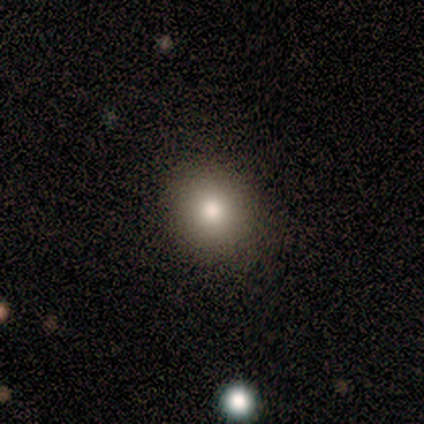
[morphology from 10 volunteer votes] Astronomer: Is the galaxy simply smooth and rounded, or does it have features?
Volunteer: smooth — 100%.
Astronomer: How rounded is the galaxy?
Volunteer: round — 60% (runner-up: in between, 40%).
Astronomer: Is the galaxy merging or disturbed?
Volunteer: none — 80%.